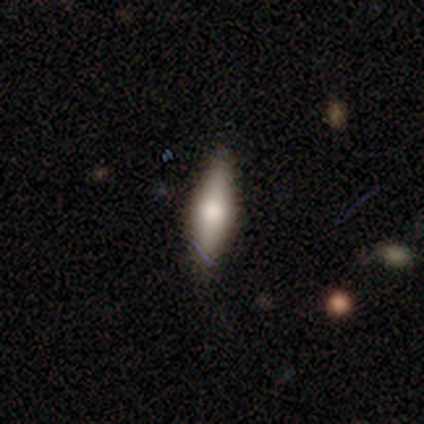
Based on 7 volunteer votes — Overall: star or artifact (43%; smooth 29%).